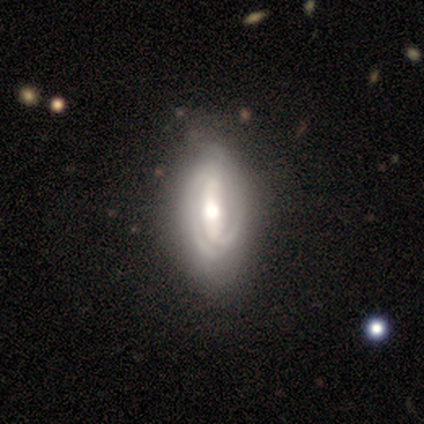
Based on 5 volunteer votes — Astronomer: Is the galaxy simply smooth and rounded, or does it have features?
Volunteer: smooth — 60% (runner-up: featured or disk, 40%).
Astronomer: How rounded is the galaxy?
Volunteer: in between — 100%.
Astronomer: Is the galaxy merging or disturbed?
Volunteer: none — 60%.